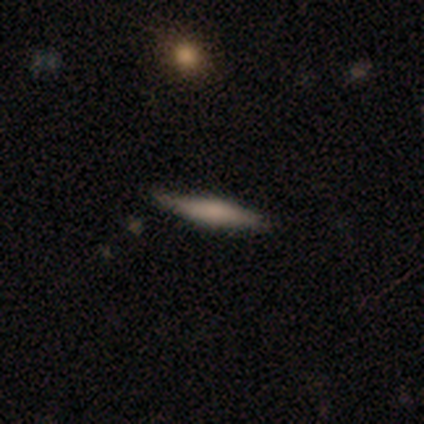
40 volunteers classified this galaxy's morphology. Smooth or featured? 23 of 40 (57%) said smooth. How rounded? 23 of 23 (100%) said cigar-shaped. Merging? 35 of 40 (88%) said none.